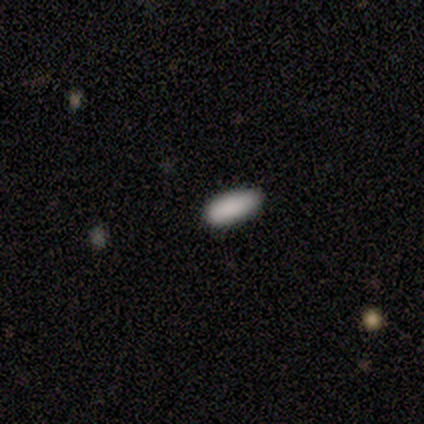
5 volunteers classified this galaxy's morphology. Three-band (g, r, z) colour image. It shows a smooth galaxy with no disk features (80%) that is in between round and cigar-shaped (100%). Merging: none (100%).